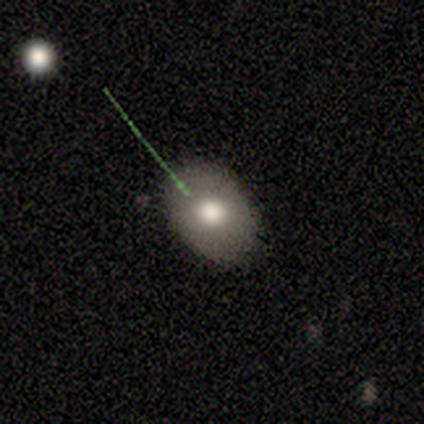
Smooth or featured? smooth (100%)
How rounded? round (50%, tied with in between)
Merging? none (50%)